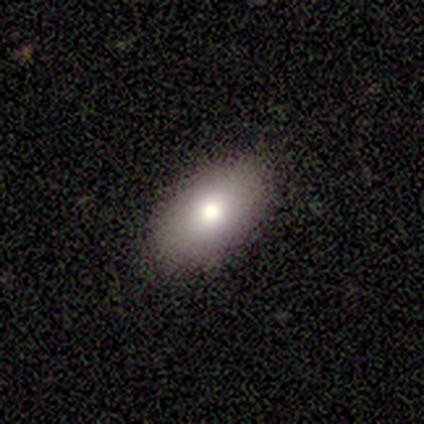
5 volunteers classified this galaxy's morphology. This is likely a smooth galaxy (60%). How rounded: clearly in between (100%). Merging: clearly none (100%).